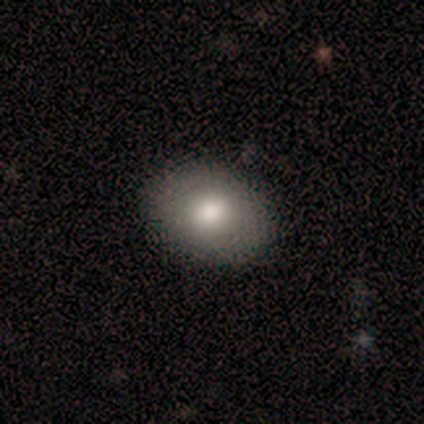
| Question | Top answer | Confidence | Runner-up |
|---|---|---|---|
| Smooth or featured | smooth | 100% | — |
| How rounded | round | 57% | in between (43%) |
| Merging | none | 86% | minor disturbance (14%) |